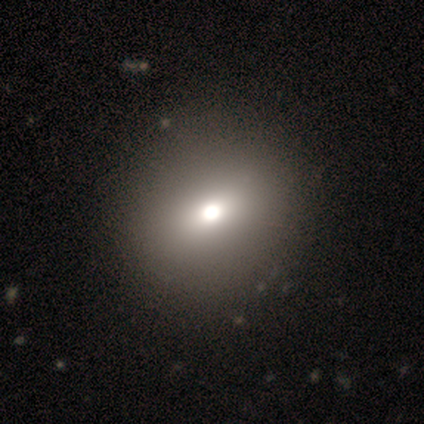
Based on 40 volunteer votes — smooth_or_featured: smooth (p=0.72) [alt: star or artifact p=0.15]
how_rounded: round (p=0.83) [alt: in between p=0.17]
merging: none (p=0.74) [alt: major disturbance p=0.03]